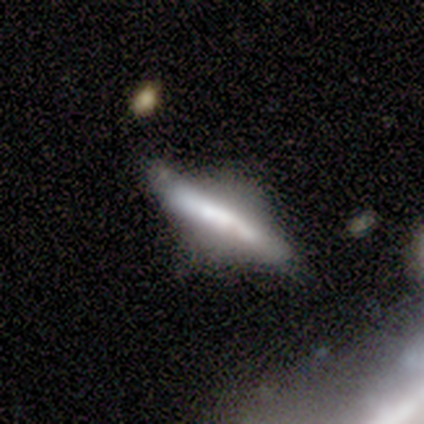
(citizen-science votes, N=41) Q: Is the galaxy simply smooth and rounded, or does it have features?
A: featured or disk — 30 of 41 (73%).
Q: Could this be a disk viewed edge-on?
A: yes — 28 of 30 (93%).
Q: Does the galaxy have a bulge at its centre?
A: boxy — 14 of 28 (50%).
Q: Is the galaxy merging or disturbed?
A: none — 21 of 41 (51%).